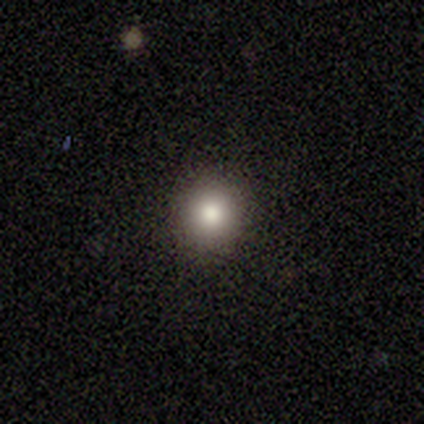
A smooth galaxy with no disk features (86%) that is round (83%). Merging: none (100%).